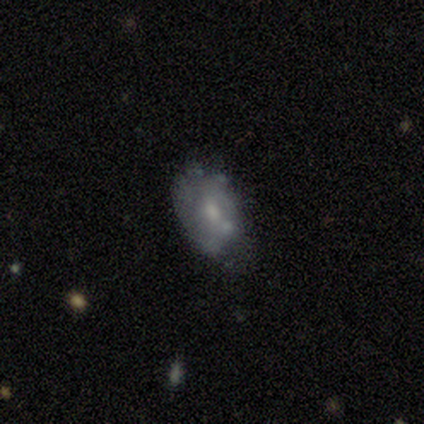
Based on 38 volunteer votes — Q: Smooth or featured?
A: featured or disk (61%); runner-up: smooth (37%)
Q: Edge-on disk?
A: no (91%); runner-up: yes (9%)
Q: Bar?
A: no (95%); runner-up: weak (5%)
Q: Spiral arms?
A: no (95%); runner-up: yes (5%)
Q: Bulge size?
A: small (52%); runner-up: moderate (33%)
Q: Merging?
A: none (59%); runner-up: minor disturbance (24%)